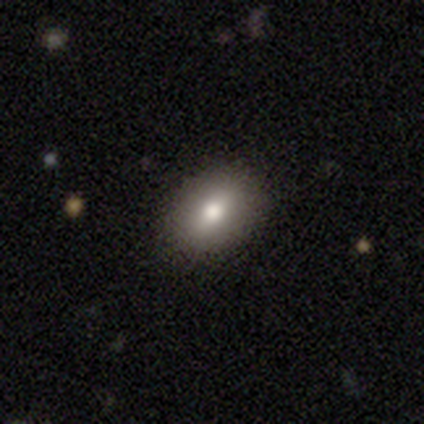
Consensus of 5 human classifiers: This is clearly a smooth galaxy (80%). How rounded: clearly in between (100%). Merging: clearly none (100%).